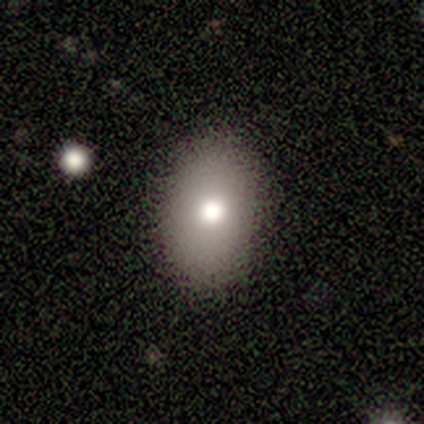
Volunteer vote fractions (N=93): Smooth or featured?
  - smooth: 78% *
  - star or artifact: 13%
  - featured or disk: 9%
How rounded?
  - in between: 84% *
  - round: 15%
  - cigar-shaped: 1%
Merging?
  - none: 86% *
  - minor disturbance: 10%
  - major disturbance: 4%
  - merger: 0%